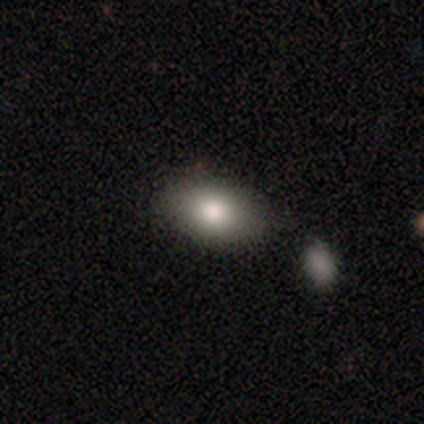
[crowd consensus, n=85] Smooth or featured?
  - smooth: 72% *
  - featured or disk: 15%
  - star or artifact: 13%
How rounded?
  - in between: 89% *
  - round: 11%
  - cigar-shaped: 0%
Merging?
  - none: 68% *
  - minor disturbance: 16%
  - merger: 14%
  - major disturbance: 3%